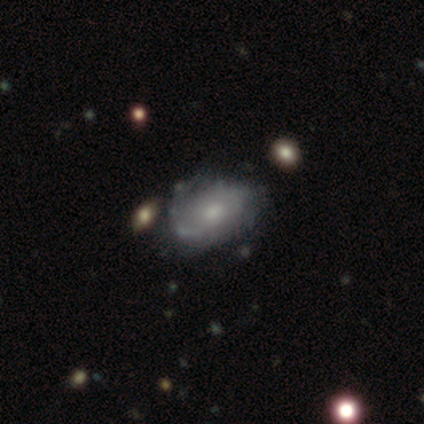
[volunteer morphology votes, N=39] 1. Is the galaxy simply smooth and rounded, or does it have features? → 59% featured or disk, 38% smooth, 3% star or artifact.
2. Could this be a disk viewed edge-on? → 100% no, 0% yes.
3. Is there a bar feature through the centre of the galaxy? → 70% no, 30% weak, 0% strong.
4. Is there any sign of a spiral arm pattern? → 74% yes, 26% no.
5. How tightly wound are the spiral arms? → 41% medium, 35% tight, 24% loose.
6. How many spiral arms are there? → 53% can't tell, 29% 2, 18% 1, 0% 3, 0% 4, 0% more than 4.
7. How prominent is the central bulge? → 61% moderate, 35% small, 4% large, 0% dominant, 0% none.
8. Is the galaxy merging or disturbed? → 42% none, 29% minor disturbance, 5% merger, 0% major disturbance.